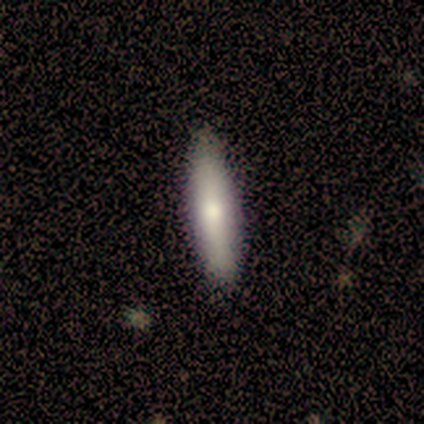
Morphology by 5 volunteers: Smooth or featured? 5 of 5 (100%) said smooth. How rounded? 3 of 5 (60%) said cigar-shaped. Merging? 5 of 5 (100%) said none.